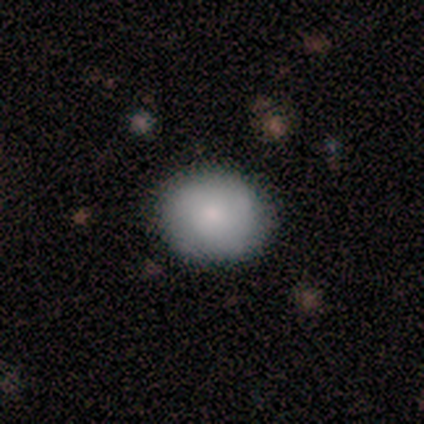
Smooth or featured? smooth (100%)
How rounded? round (100%)
Merging? none (100%)